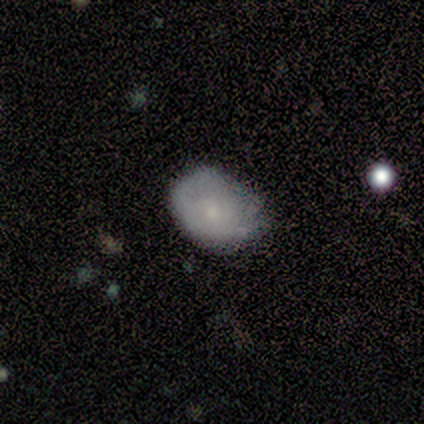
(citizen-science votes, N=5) Overall: smooth (80%). How rounded: in between (100%). Merging: minor disturbance (80%).